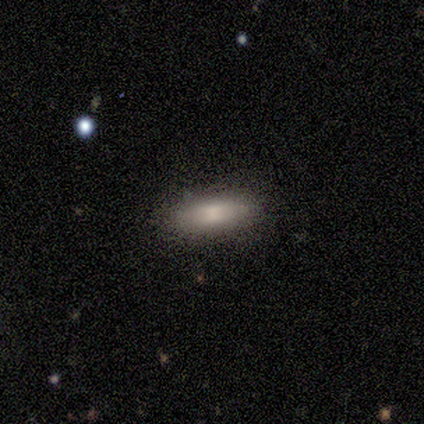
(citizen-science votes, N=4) Smooth or featured: smooth — 75% (featured or disk — 25%)
How rounded: cigar-shaped — 67% (in between — 33%)
Merging: none — 75% (minor disturbance — 25%)